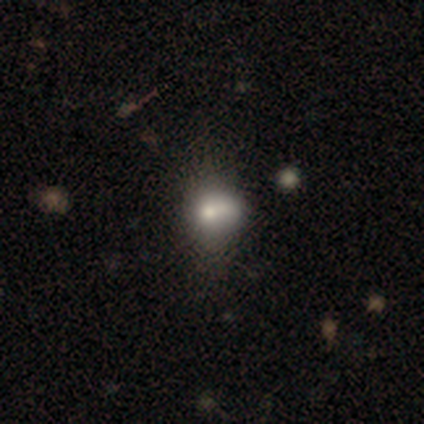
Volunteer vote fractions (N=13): smooth-or-featured: smooth: 46% | star or artifact: 31% | featured or disk: 23%
  how-rounded: in between: 50% | round: 33% | cigar-shaped: 17%
  merging: none: 44% (tied) | minor disturbance: 44% (tied) | merger: 11% | major disturbance: 0%